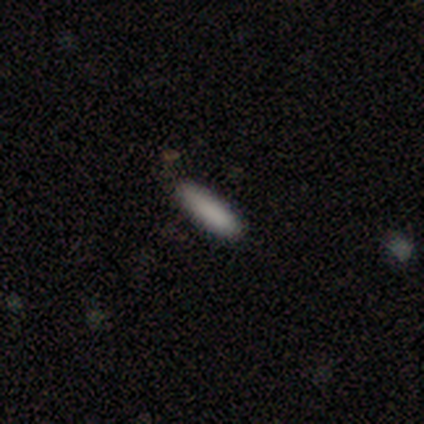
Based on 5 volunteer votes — Smooth or featured?
  - smooth: 80% *
  - star or artifact: 20%
  - featured or disk: 0%
How rounded?
  - cigar-shaped: 75% *
  - in between: 25%
  - round: 0%
Merging?
  - none: 50% * (tied)
  - minor disturbance: 50% * (tied)
  - major disturbance: 0%
  - merger: 0%